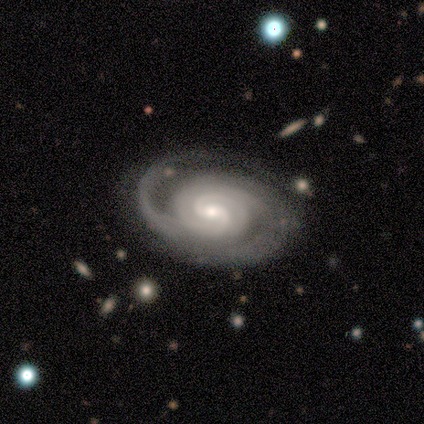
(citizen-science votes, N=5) featured or disk 80%, star or artifact 20%, smooth 0%. Down the decision tree: edge-on disk — no (100%); bar — weak (75%); spiral arms — yes (100%); spiral arm count — 2 (50%); spiral winding — tight (100%); bulge size — small (75%); merging — none (100%).